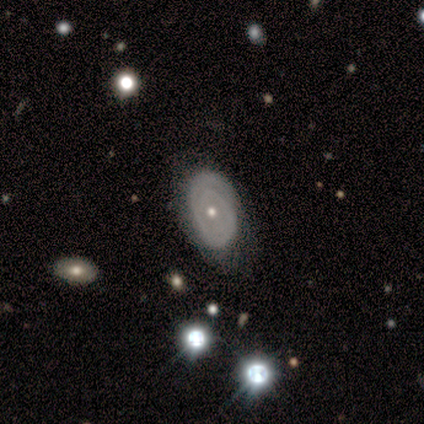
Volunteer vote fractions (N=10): smooth_or_featured: featured or disk (p=0.70) [alt: smooth p=0.30]
disk_edge_on: no (p=1.00)
bar: no (p=0.86) [alt: strong p=0.14]
has_spiral_arms: yes (p=0.71) [alt: no p=0.29]
spiral_winding: tight (p=0.80) [alt: medium p=0.20]
spiral_arm_count: can't tell (p=0.60) [alt: 2 p=0.40]
bulge_size: small (p=0.57) [alt: moderate p=0.43]
merging: none (p=0.90) [alt: major disturbance p=0.10]